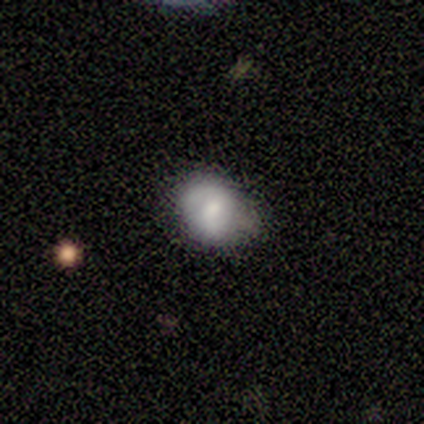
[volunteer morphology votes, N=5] type=smooth (100%); roundness=in between (60%); merging=minor disturbance (60%).